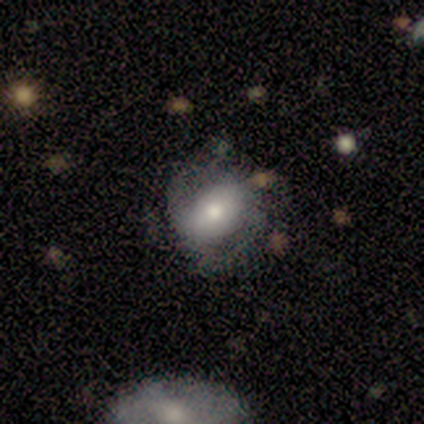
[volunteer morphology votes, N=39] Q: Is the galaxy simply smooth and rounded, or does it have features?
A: featured or disk — 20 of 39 (51%).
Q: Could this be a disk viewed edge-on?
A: no — 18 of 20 (90%).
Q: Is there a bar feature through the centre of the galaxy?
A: no — 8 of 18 (44%).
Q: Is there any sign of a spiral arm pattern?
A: yes — 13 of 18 (72%).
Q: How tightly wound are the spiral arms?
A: medium — 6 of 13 (46%).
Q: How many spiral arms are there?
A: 2 — 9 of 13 (69%).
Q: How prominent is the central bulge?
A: moderate — 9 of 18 (50%).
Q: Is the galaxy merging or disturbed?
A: none — 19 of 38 (50%).